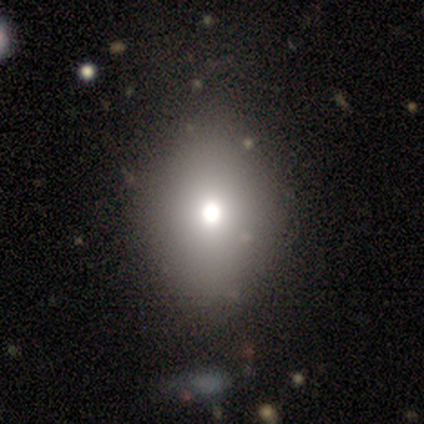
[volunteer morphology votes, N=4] Smooth or featured? smooth (75%)
How rounded? in between (100%)
Merging? none (100%)